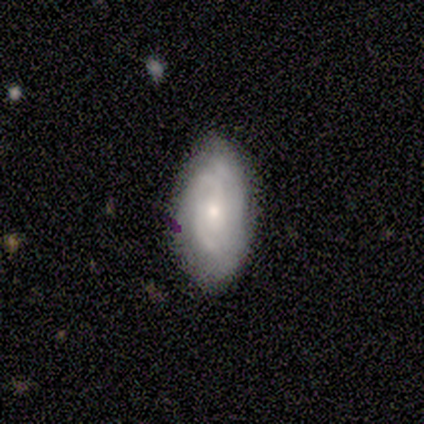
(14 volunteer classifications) Smooth or featured: featured or disk — 79% (smooth — 14%)
Edge-on disk: no — 100%
Bar: no — 73% (weak — 27%)
Spiral arms: yes — 91% (no — 9%)
Spiral winding: tight — 70% (medium — 30%)
Spiral arm count: 2 — 50% (can't tell — 30%)
Bulge size: small — 55% (moderate — 45%)
Merging: none — 77% (minor disturbance — 23%)